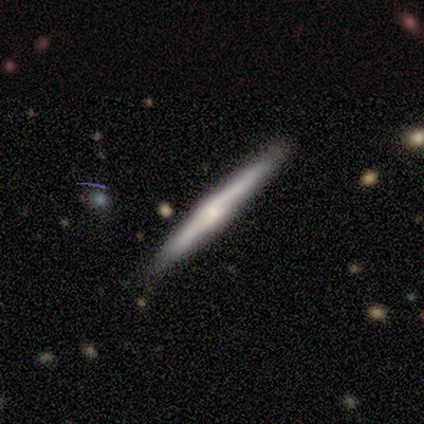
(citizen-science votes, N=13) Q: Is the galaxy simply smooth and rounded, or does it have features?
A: featured or disk — 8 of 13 (62%).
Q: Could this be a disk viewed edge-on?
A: yes — 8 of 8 (100%).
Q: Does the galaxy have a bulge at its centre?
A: rounded — 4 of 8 (50%).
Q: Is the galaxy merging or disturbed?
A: none — 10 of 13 (77%).